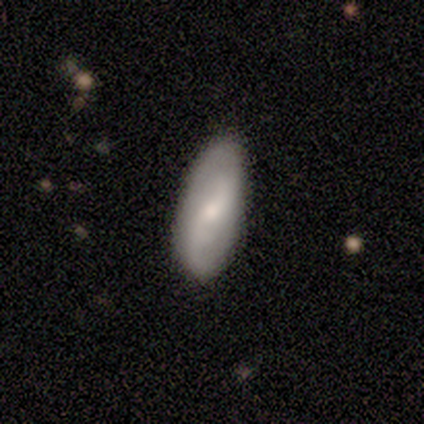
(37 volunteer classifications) This is possibly a featured or disk galaxy (51%). It is clearly not viewed edge-on (100%). Bar: possibly no (53%). Spiral arm pattern: clearly yes (100%). Spiral arm count: clearly 2 (84%). Spiral winding: likely loose (68%). Central bulge: possibly small (53%). Merging: clearly none (85%).